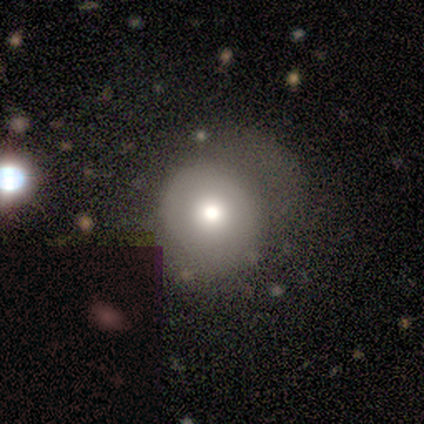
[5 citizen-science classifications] A smooth galaxy with no disk features (60%) that is round (100%). Merging: none (67%).